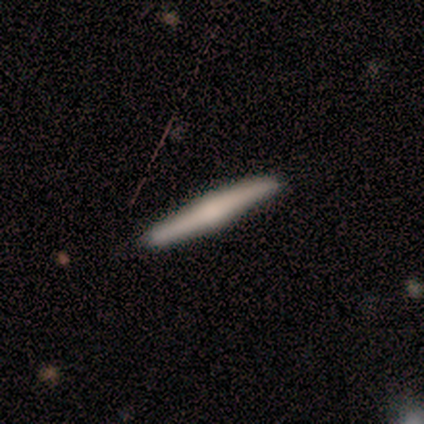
Q: Smooth or featured?
A: featured or disk (60%); runner-up: smooth (20%)
Q: Edge-on disk?
A: yes (100%)
Q: Edge-on bulge?
A: rounded (67%); runner-up: none (33%)
Q: Merging?
A: none (100%)